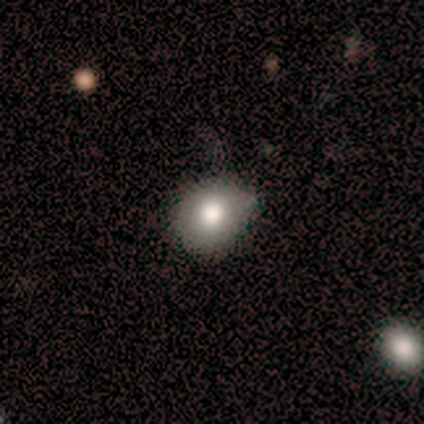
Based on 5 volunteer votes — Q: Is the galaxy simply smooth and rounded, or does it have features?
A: smooth — 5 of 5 (100%).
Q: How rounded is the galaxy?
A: round — 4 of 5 (80%).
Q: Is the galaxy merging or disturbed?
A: none — 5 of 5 (100%).